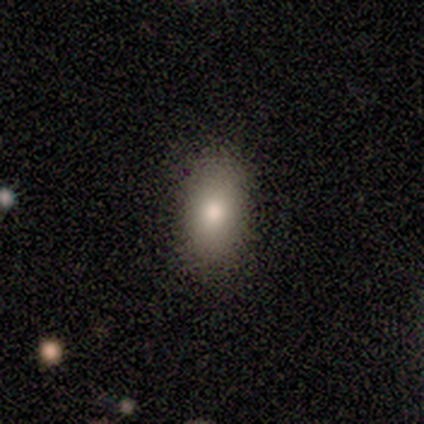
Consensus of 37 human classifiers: Smooth or featured? 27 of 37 (73%) said smooth. How rounded? 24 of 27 (89%) said in between. Merging? 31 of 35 (89%) said none.